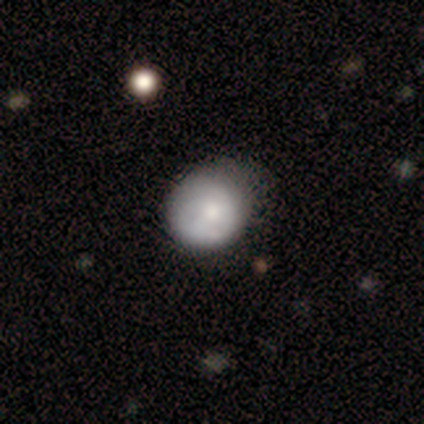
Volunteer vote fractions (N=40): smooth_or_featured: smooth (p=0.57) [alt: featured or disk p=0.42]
how_rounded: round (p=0.91) [alt: in between p=0.09]
merging: none (p=0.33) [alt: minor disturbance p=0.28]